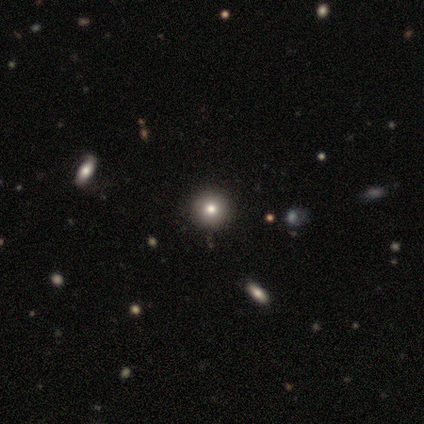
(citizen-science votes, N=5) Smooth or featured: star or artifact — 60% (smooth — 40%)